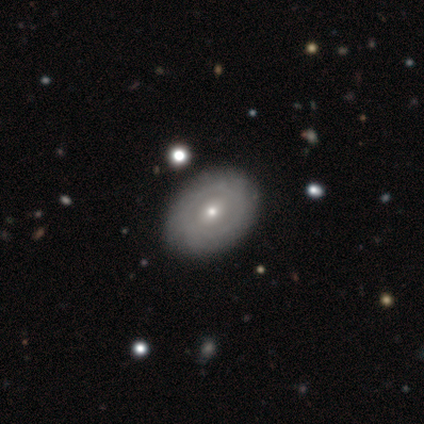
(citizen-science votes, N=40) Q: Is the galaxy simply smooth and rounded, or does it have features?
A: featured or disk — 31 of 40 (78%).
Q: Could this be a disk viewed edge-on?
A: no — 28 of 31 (90%).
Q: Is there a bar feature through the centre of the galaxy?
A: no — 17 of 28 (61%).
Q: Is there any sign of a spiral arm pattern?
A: no — 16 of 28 (57%).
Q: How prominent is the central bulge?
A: small — 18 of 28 (64%).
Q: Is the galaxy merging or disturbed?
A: none — 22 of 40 (55%).